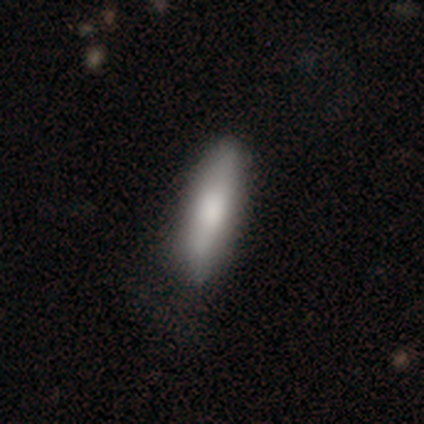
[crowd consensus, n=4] A smooth galaxy with no disk features (50%, tied with featured or disk) that is cigar-shaped (100%).

Vote fractions:
- Smooth or featured? smooth: 50% (tied) / featured or disk: 50% (tied) / star or artifact: 0%
- How rounded? cigar-shaped: 100% / round: 0% / in between: 0%
- Merging? none: 75% / minor disturbance: 25% / major disturbance: 0% / merger: 0%